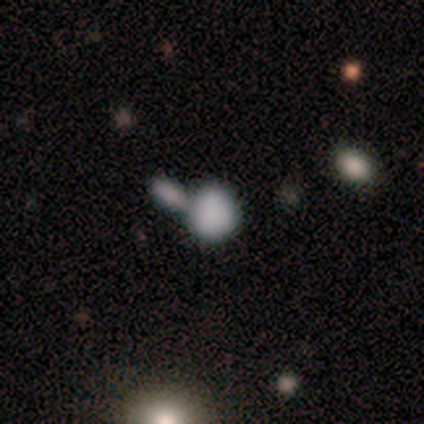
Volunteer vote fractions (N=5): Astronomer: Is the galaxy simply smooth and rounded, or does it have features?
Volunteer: smooth — 80%.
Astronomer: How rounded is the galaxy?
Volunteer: round — 100%.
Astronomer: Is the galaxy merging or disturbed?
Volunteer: merger — 80%.